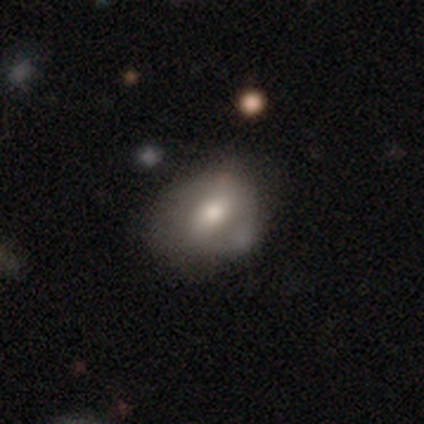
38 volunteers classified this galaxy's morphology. smooth-or-featured: smooth: 61% | featured or disk: 26% | star or artifact: 13%
  how-rounded: in between: 70% | round: 22% | cigar-shaped: 9%
  merging: none: 39% | minor disturbance: 36% | merger: 15% | major disturbance: 9%